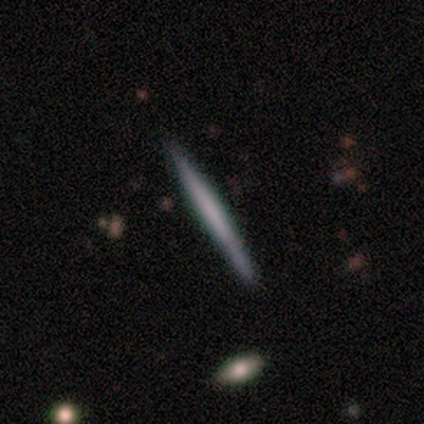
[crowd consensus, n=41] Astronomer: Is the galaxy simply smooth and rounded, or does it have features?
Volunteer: smooth — 61%.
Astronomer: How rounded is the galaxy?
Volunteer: cigar-shaped — 100%.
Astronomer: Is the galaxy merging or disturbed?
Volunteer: none — 90%.